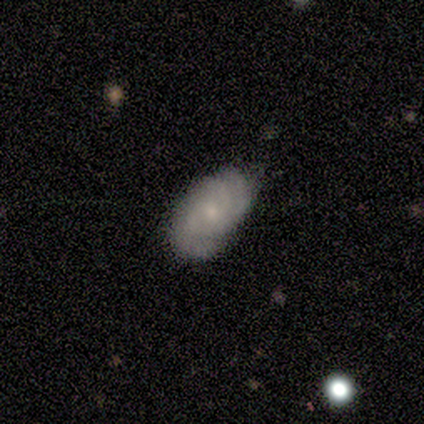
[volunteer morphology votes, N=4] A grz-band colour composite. It shows a smooth galaxy with no disk features (50%, tied with featured or disk) that is round (50%, tied with in between). Merging: none (75%).